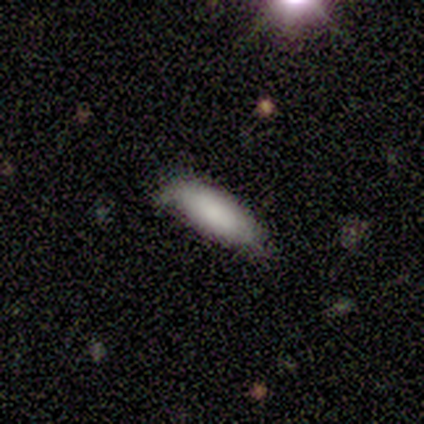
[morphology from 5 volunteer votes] type=smooth (100%); roundness=cigar-shaped (80%); merging=minor disturbance (100%).